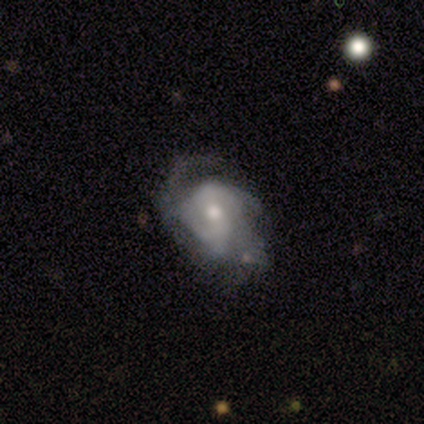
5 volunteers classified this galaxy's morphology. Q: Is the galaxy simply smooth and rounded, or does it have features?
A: featured or disk — 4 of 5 (80%).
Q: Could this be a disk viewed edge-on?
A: no — 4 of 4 (100%).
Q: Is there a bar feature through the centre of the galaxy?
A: weak — 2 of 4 (50%, tied with no).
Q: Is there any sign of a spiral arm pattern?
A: yes — 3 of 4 (75%).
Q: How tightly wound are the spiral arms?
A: medium — 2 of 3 (67%).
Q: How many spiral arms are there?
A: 2 — 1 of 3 (33%, tied with 4 and can't tell).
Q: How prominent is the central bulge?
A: small — 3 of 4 (75%).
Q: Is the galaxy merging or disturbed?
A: minor disturbance — 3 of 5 (60%).